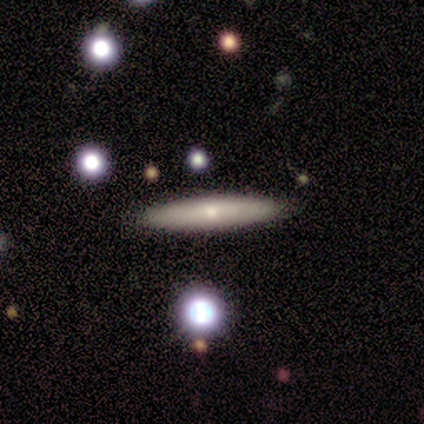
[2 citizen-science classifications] This is possibly a smooth galaxy (50%, tied with featured or disk). How rounded: clearly cigar-shaped (100%). Merging: clearly none (100%).